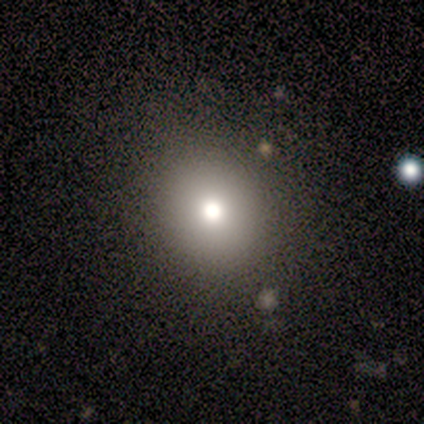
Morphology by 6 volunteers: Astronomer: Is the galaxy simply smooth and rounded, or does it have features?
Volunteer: smooth — 83%.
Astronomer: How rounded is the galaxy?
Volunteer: round — 100%.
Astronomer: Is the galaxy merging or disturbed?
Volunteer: none — 100%.